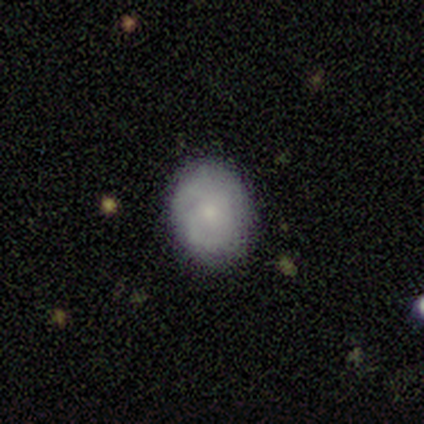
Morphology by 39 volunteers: Overall: featured or disk (51%; smooth 46%). Edge-on disk: no (95%). Bar: no (84%). Spiral arms: yes (68%; no 32%). Spiral arm count: can't tell (46%; 2 31%). Spiral winding: tight (85%). Bulge size: small (74%). Merging: none (87%).